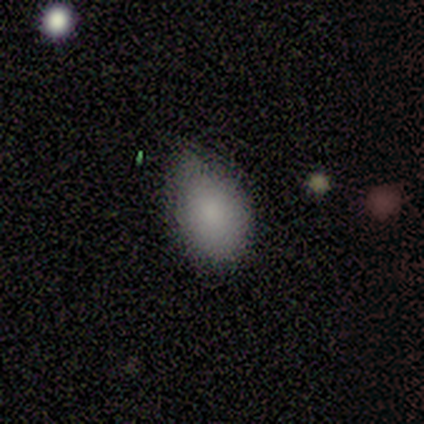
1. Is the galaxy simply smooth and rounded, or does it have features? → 91% smooth, 9% featured or disk, 0% star or artifact.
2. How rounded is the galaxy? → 80% in between, 20% round, 0% cigar-shaped.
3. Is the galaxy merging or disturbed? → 64% none, 36% minor disturbance, 0% major disturbance, 0% merger.